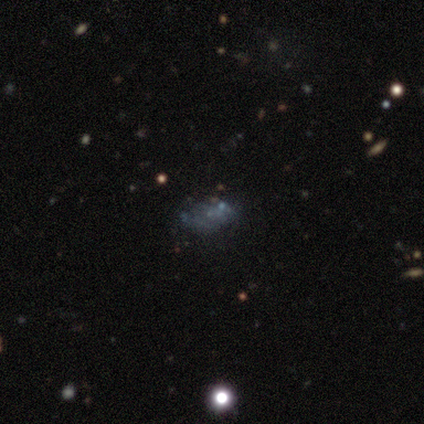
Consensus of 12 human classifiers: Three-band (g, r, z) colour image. It shows a smooth galaxy with no disk features (33%, tied with featured or disk and star or artifact) that is in between round and cigar-shaped (100%). Merging: none (75%).